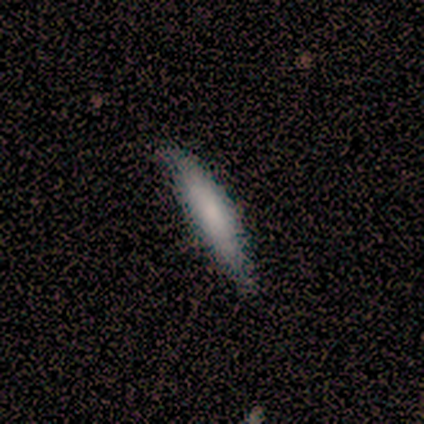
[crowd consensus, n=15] Q: Smooth or featured?
A: smooth (93%); runner-up: featured or disk (7%)
Q: How rounded?
A: cigar-shaped (86%); runner-up: in between (14%)
Q: Merging?
A: none (60%); runner-up: minor disturbance (40%)